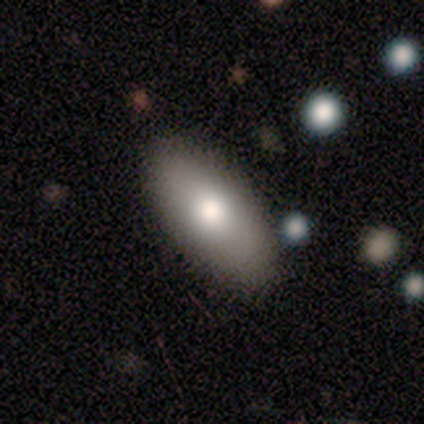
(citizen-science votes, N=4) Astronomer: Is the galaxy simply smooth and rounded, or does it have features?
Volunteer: smooth — 100%.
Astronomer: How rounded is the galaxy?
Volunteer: in between — 100%.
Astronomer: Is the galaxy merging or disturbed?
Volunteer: none — 100%.